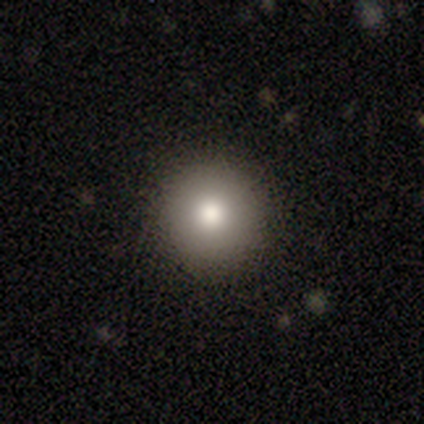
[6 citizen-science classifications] Smooth or featured? 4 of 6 (67%) said smooth. How rounded? 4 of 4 (100%) said round. Merging? 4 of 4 (100%) said none.